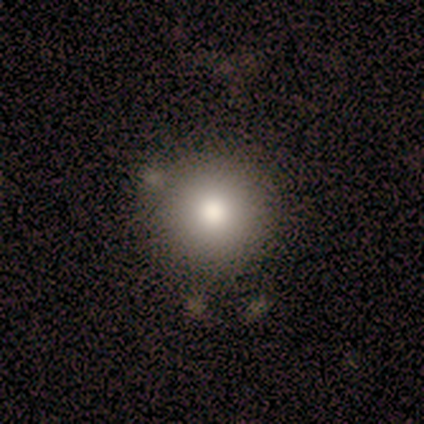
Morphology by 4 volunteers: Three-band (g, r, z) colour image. It shows a smooth galaxy with no disk features (100%) that is round (100%). Merging: none (100%).